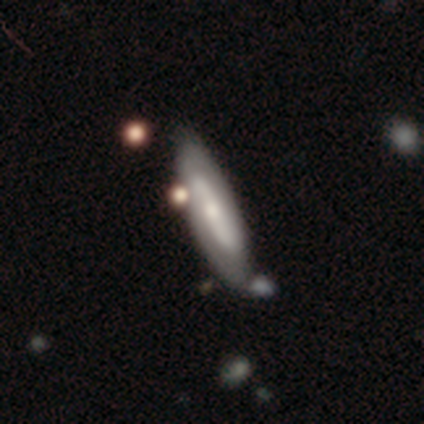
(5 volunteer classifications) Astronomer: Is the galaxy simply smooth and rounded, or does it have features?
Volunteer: featured or disk — 80%.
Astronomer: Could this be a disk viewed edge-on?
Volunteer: yes — 50%, tied with no at 50%.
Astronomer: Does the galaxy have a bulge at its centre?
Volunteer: rounded — 100%.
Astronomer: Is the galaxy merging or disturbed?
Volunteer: minor disturbance — 60%.